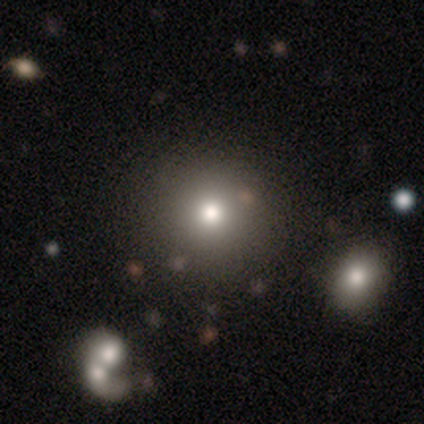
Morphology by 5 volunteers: A smooth galaxy with no disk features (60%) that is round (100%). Merging: none (100%).